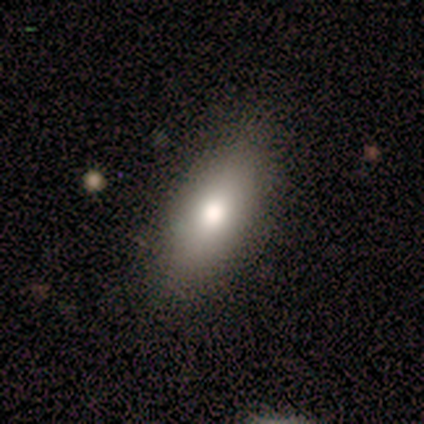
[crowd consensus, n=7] smooth-or-featured: smooth: 100% | featured or disk: 0% | star or artifact: 0%
  how-rounded: in between: 71% | round: 14% | cigar-shaped: 14%
  merging: none: 100% | minor disturbance: 0% | major disturbance: 0% | merger: 0%